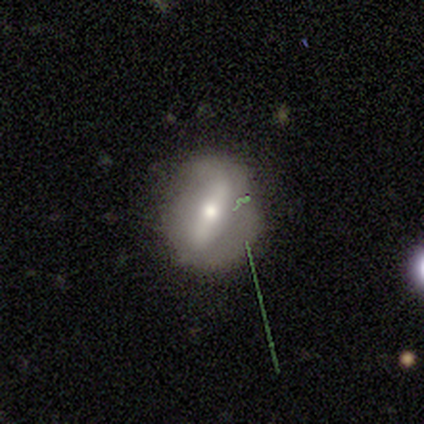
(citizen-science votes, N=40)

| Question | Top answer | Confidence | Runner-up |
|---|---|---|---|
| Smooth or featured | featured or disk | 68% | smooth (25%) |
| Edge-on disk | no | 63% | yes (37%) |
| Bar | strong | 71% | weak (18%) |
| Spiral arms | no | 71% | yes (29%) |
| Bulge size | moderate | 59% | small (35%) |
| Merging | none | 51% | minor disturbance (24%) |